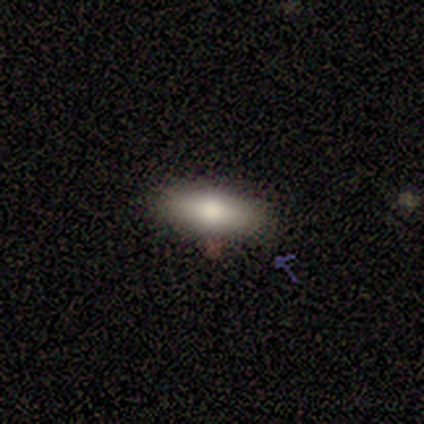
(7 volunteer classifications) This appears to be a smooth galaxy with no disk features (86%) that is in between round and cigar-shaped (67%). Merging: none (100%).